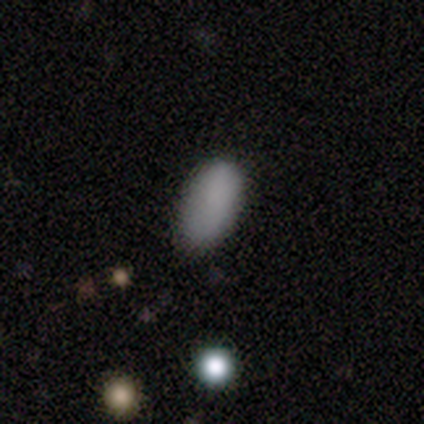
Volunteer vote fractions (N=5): Volunteers were most divided on "merging": none: 80%, minor disturbance: 20%, major disturbance: 0%, merger: 0%. More confident: smooth or featured — smooth (100%); how rounded — in between (100%).